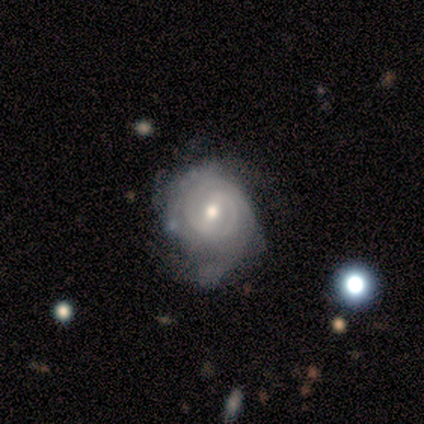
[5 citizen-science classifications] This is clearly a featured or disk galaxy (80%). It is clearly not viewed edge-on (100%). Bar: possibly weak (50%). Spiral arm pattern: clearly yes (100%). Spiral arm count: possibly 2 (50%). Spiral winding: possibly tight (50%, tied with medium). Central bulge: likely moderate (75%). Merging: likely minor disturbance (60%).